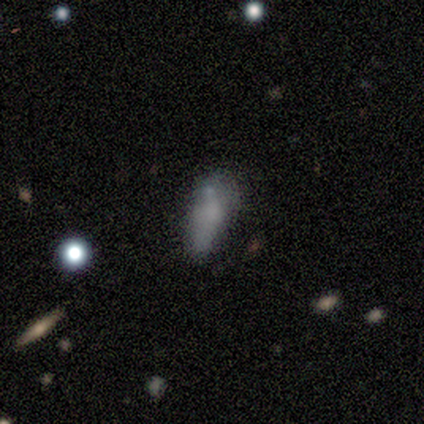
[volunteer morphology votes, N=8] A smooth galaxy with no disk features (75%) that is in between round and cigar-shaped (83%). Merging: none (43%, tied with minor disturbance).